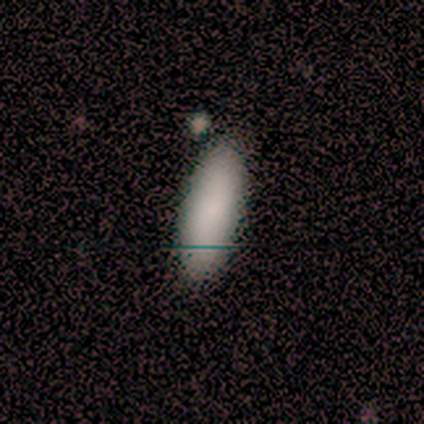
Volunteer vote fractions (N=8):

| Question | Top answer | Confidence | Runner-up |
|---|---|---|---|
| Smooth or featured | smooth | 100% | — |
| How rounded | cigar-shaped | 62% | in between (38%) |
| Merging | none | 62% | minor disturbance (38%) |